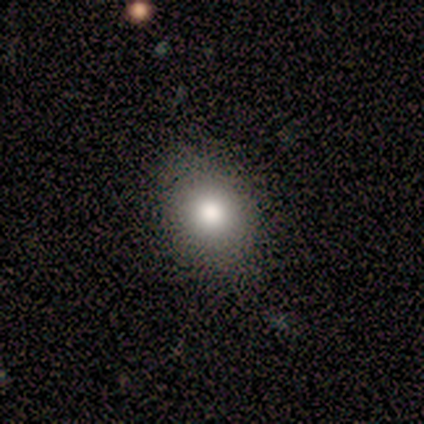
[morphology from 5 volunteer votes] Q: Smooth or featured?
A: smooth (60%); runner-up: featured or disk (40%)
Q: How rounded?
A: in between (67%); runner-up: round (33%)
Q: Merging?
A: none (100%)